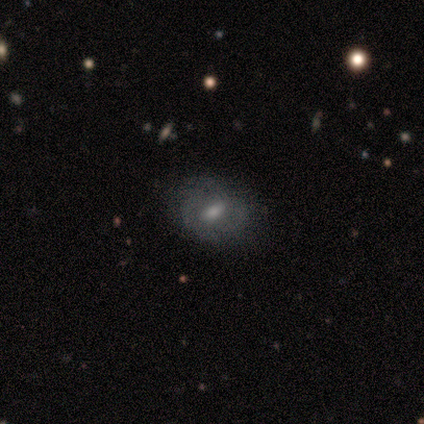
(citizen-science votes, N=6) smooth 50% (tied), featured or disk 50% (tied), star or artifact 0%. Down the decision tree: how rounded — in between (67%); merging — none (83%).